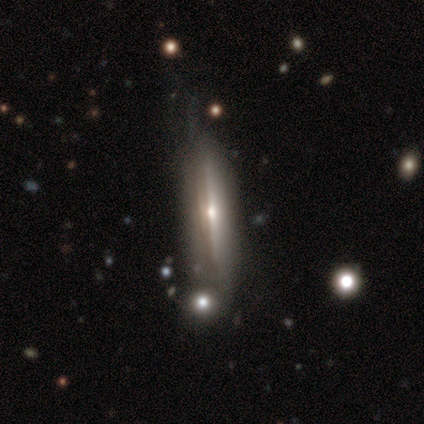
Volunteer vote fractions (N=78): Smooth or featured? 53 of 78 (68%) said featured or disk. Edge-on disk? 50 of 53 (94%) said yes. Edge-on bulge? 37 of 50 (74%) said rounded. Merging? 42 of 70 (60%) said none.